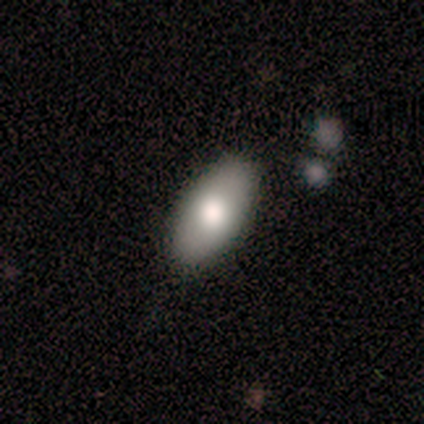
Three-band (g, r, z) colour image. It shows a smooth galaxy with no disk features (60%) that is in between round and cigar-shaped (100%). Merging: none (100%).